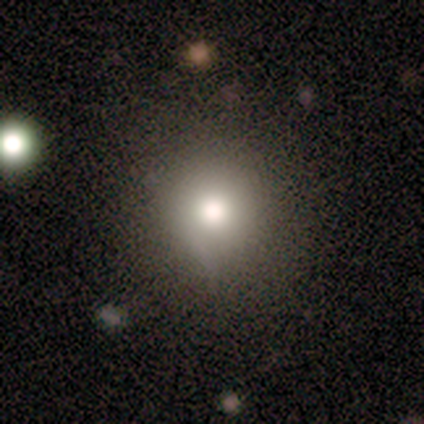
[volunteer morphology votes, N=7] Smooth or featured? smooth (100%)
How rounded? round (100%)
Merging? none (57%)